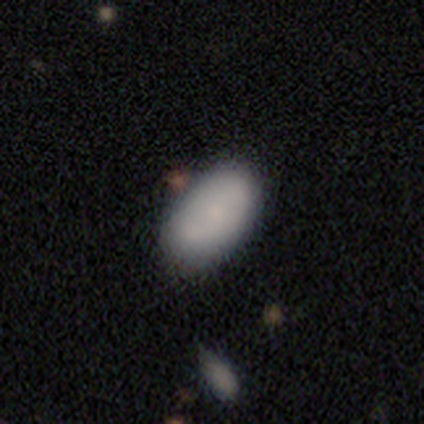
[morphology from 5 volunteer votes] Smooth or featured: smooth — 100%
How rounded: in between — 100%
Merging: none — 80% (minor disturbance — 20%)